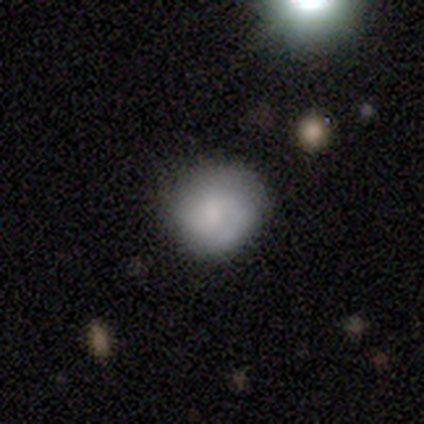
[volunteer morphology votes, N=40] type=smooth (72%); roundness=round (93%); merging=none (78%).